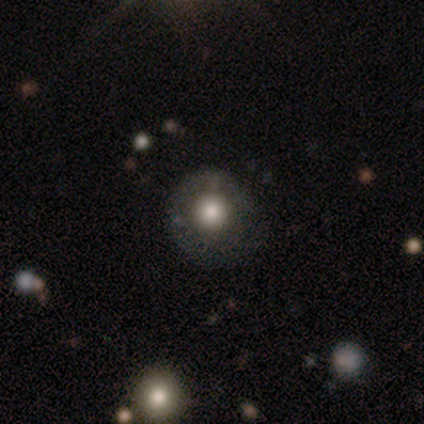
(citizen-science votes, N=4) This appears to be a smooth galaxy with no disk features (50%) that is round (100%). Merging: none (67%).